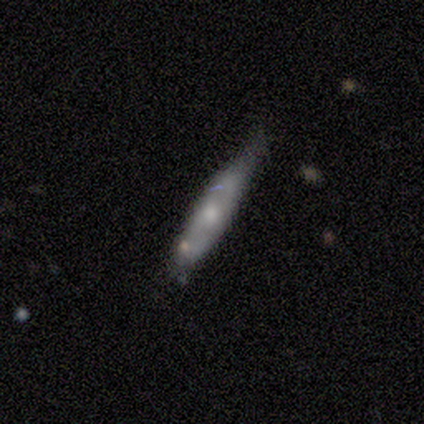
Smooth or featured?
  - smooth: 80% *
  - featured or disk: 20%
  - star or artifact: 0%
How rounded?
  - cigar-shaped: 100% *
  - round: 0%
  - in between: 0%
Merging?
  - none: 80% *
  - minor disturbance: 20%
  - major disturbance: 0%
  - merger: 0%